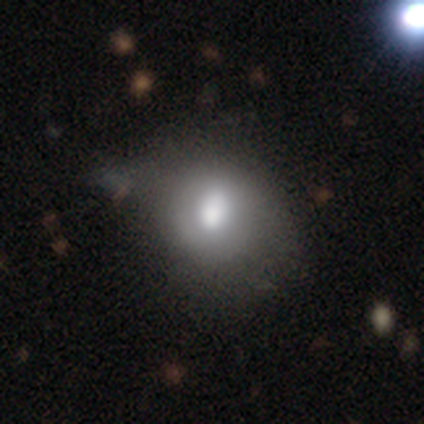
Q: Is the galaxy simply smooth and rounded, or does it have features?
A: smooth — 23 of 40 (57%).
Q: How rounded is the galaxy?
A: round — 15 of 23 (65%).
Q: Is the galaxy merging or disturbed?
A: none — 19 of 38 (50%).